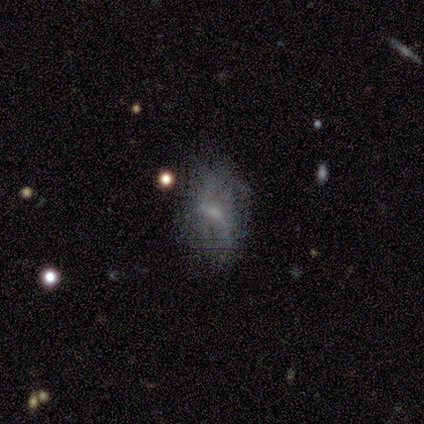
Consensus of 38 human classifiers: A featured or disk galaxy (61%) with no bar (65%), no spiral arms (74%) and a small central bulge (78%).

Vote fractions:
- Smooth or featured? featured or disk: 61% / smooth: 29% / star or artifact: 11%
- Edge-on disk? no: 100% / yes: 0%
- Bar? no: 65% / weak: 35% / strong: 0%
- Spiral arms? no: 74% / yes: 26%
- Bulge size? small: 78% / none: 17% / moderate: 4% / dominant: 0% / large: 0%
- Merging? none: 44% / minor disturbance: 29% / major disturbance: 24% / merger: 3%